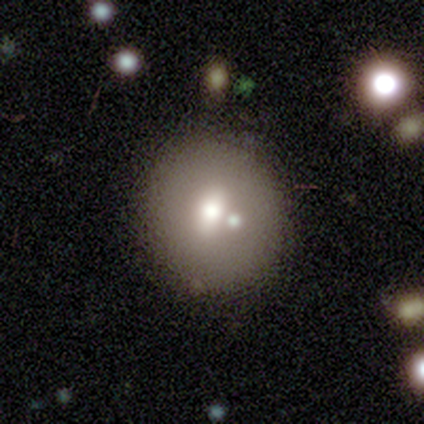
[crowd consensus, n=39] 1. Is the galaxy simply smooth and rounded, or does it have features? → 59% smooth, 36% featured or disk, 5% star or artifact.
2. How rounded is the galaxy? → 74% round, 26% in between, 0% cigar-shaped.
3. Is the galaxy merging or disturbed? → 62% none, 16% merger, 5% minor disturbance, 3% major disturbance.